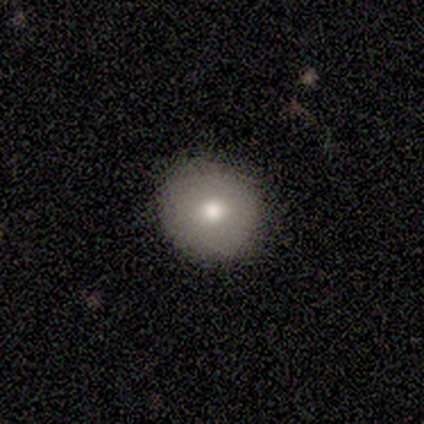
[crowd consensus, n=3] Smooth or featured?
  - smooth: 100% *
  - featured or disk: 0%
  - star or artifact: 0%
How rounded?
  - round: 100% *
  - in between: 0%
  - cigar-shaped: 0%
Merging?
  - none: 67% *
  - major disturbance: 33%
  - minor disturbance: 0%
  - merger: 0%